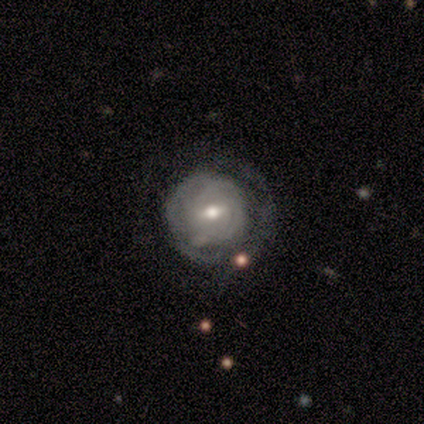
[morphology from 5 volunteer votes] smooth_or_featured: featured or disk (p=1.00)
disk_edge_on: no (p=0.80) [alt: yes p=0.20]
bar: weak (p=0.50) [tied with: no p=0.50]
has_spiral_arms: yes (p=1.00)
spiral_winding: tight (p=1.00)
spiral_arm_count: 2 (p=0.50) [alt: 1 p=0.25]
bulge_size: moderate (p=0.50) [tied with: small p=0.50]
merging: none (p=0.80) [alt: minor disturbance p=0.20]